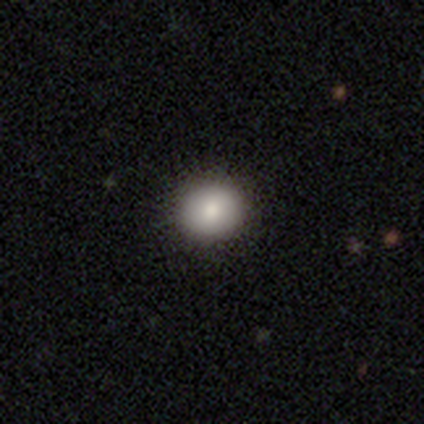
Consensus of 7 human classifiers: Smooth or featured?
  - smooth: 86% *
  - featured or disk: 14%
  - star or artifact: 0%
How rounded?
  - round: 67% *
  - in between: 33%
  - cigar-shaped: 0%
Merging?
  - none: 57% *
  - minor disturbance: 29%
  - major disturbance: 14%
  - merger: 0%